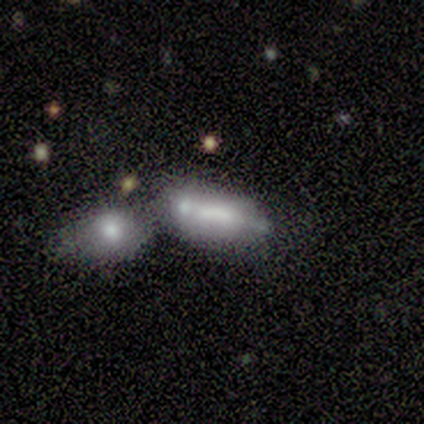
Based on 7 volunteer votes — This is possibly a featured or disk galaxy (57%). It is clearly viewed edge-on (100%). Edge-on bulge: likely boxy (75%). Merging: marginally merger (43%).